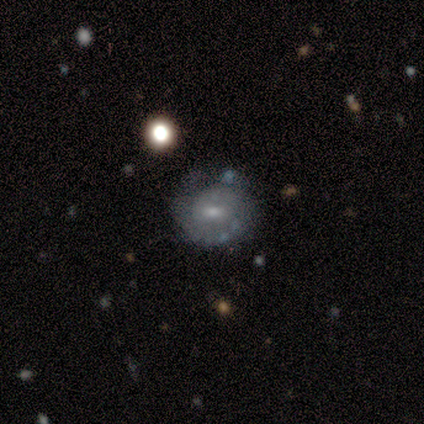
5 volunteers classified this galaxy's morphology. Q: Smooth or featured?
A: featured or disk (60%); runner-up: smooth (40%)
Q: Edge-on disk?
A: no (100%)
Q: Bar?
A: no (67%); runner-up: strong (33%)
Q: Spiral arms?
A: yes (67%); runner-up: no (33%)
Q: Spiral winding?
A: tight (100%)
Q: Spiral arm count?
A: can't tell (100%)
Q: Bulge size?
A: moderate (67%); runner-up: small (33%)
Q: Merging?
A: none (80%); runner-up: minor disturbance (20%)